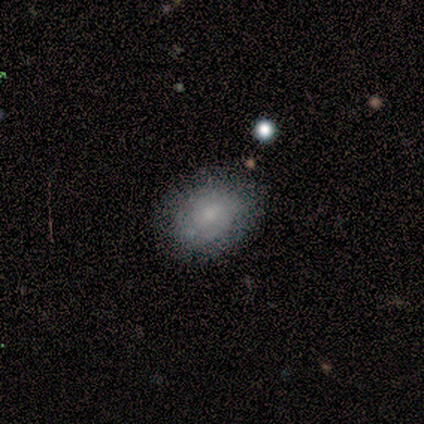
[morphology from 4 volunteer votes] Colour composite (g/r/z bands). It shows a smooth galaxy with no disk features (75%) that is in between round and cigar-shaped (67%). Merging: none (100%).